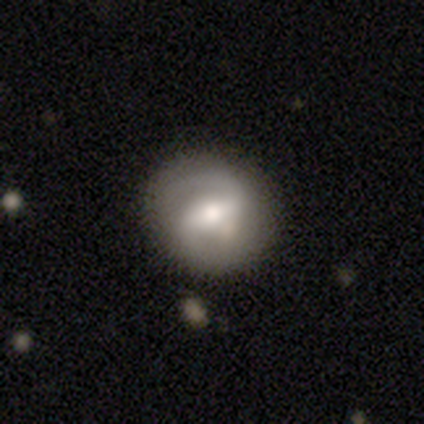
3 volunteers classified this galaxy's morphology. smooth 67%, featured or disk 33%, star or artifact 0%. Down the decision tree: how rounded — round (100%); merging — none (67%).